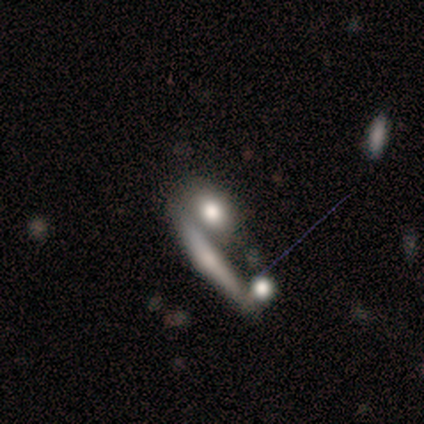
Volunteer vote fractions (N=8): Morphology: type=smooth (62%); roundness=cigar-shaped (60%); merging=merger (62%).